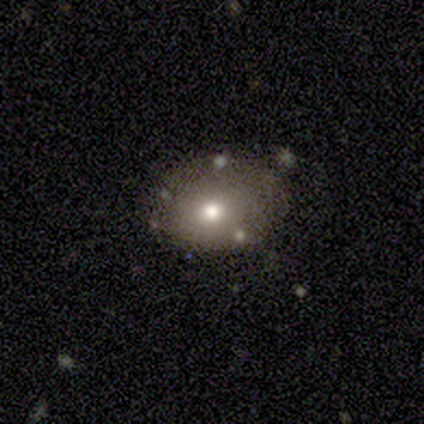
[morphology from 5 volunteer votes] Q: Smooth or featured?
A: smooth (60%); runner-up: featured or disk (20%)
Q: How rounded?
A: in between (100%)
Q: Merging?
A: minor disturbance (50%); runner-up: none (25%)